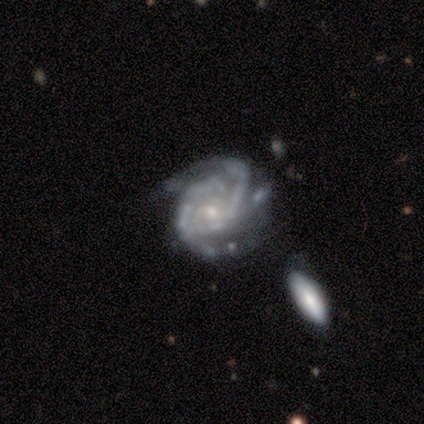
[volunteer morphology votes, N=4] Overall: featured or disk (100%). Edge-on disk: no (100%). Bar: no (100%). Spiral arms: yes (75%). Spiral arm count: 2 (67%; 3 33%). Spiral winding: tight (67%; medium 33%). Bulge size: small (75%). Merging: minor disturbance (75%).